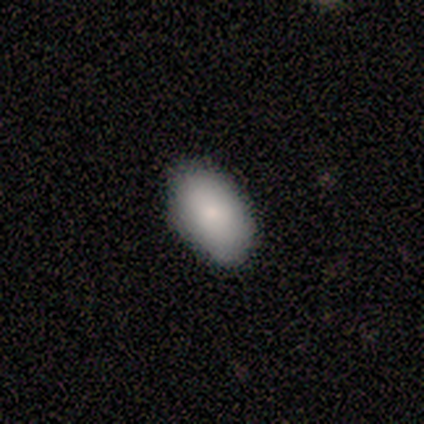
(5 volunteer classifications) This appears to be a smooth galaxy with no disk features (100%) that is in between round and cigar-shaped (100%). Merging: none (80%).